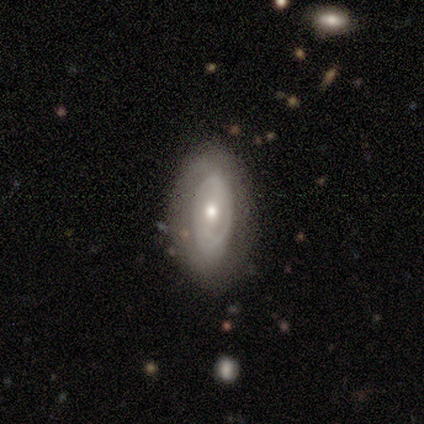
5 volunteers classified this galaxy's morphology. Q: Smooth or featured?
A: featured or disk (100%)
Q: Edge-on disk?
A: no (80%); runner-up: yes (20%)
Q: Bar?
A: no (100%)
Q: Spiral arms?
A: no (100%)
Q: Bulge size?
A: moderate (75%); runner-up: small (25%)
Q: Merging?
A: none (100%)